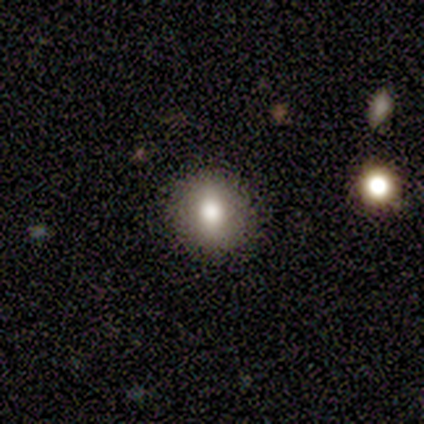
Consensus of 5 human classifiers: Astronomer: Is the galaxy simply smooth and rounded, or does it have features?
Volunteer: smooth — 40%, tied with featured or disk at 40%.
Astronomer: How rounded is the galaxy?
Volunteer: round — 100%.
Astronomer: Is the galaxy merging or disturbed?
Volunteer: none — 100%.